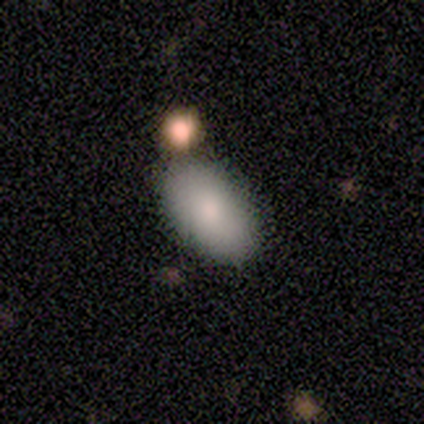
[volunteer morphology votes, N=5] Overall: smooth (100%). How rounded: in between (100%). Merging: none (100%).